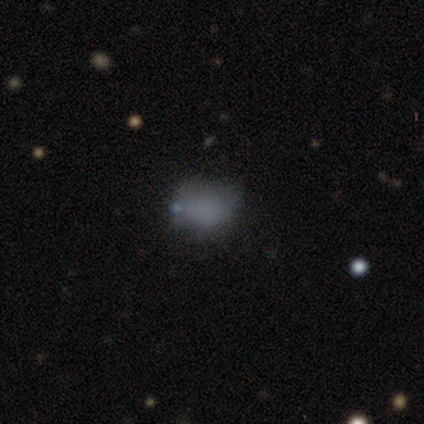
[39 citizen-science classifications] A smooth galaxy with no disk features (72%) that is in between round and cigar-shaped (54%). Merging: none (78%).